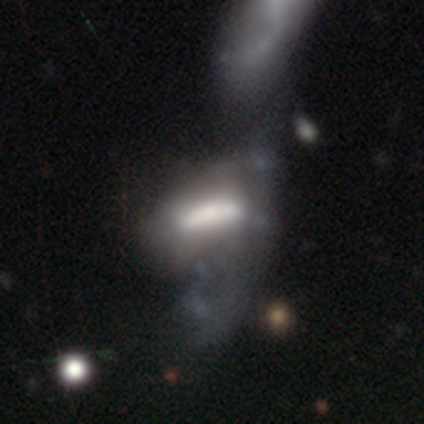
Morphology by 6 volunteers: type=smooth (67%); roundness=in between (75%); merging=major disturbance (60%).